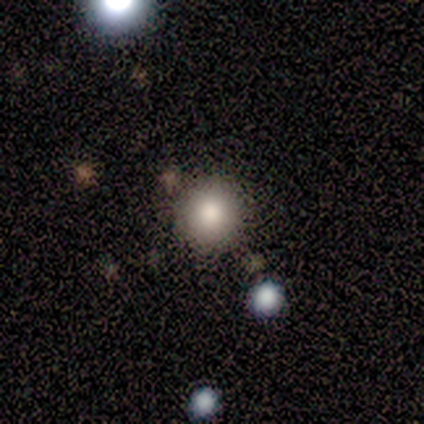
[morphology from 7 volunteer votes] Smooth or featured: smooth — 71% (featured or disk — 29%)
How rounded: round — 80% (in between — 20%)
Merging: none — 100%